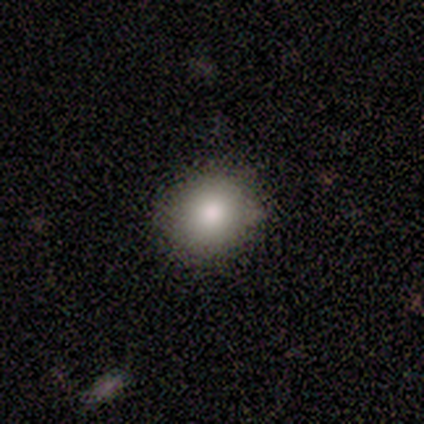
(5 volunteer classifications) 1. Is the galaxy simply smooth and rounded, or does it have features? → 80% smooth, 20% featured or disk, 0% star or artifact.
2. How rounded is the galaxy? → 75% round, 25% in between, 0% cigar-shaped.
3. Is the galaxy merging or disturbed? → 100% none, 0% minor disturbance, 0% major disturbance, 0% merger.